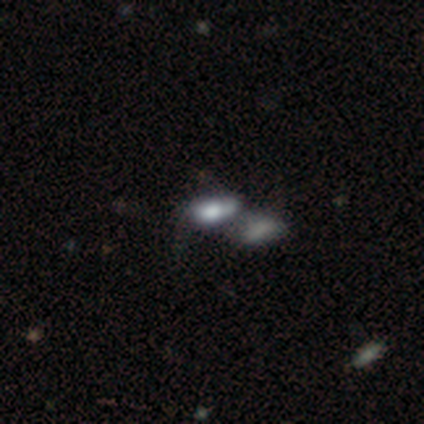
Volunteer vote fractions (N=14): smooth 57%, featured or disk 29%, star or artifact 14%. Down the decision tree: how rounded — in between (88%); merging — merger (42%).